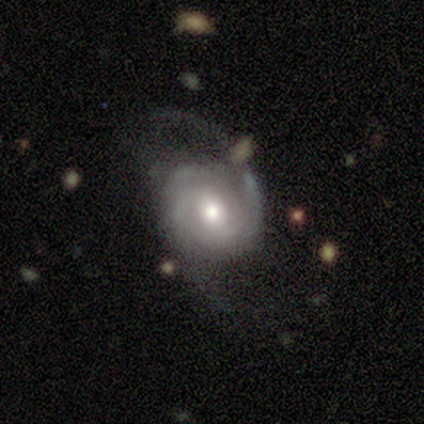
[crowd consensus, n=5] This appears to be a featured or disk galaxy (100%) with no bar (60%), 2 (60%) medium (60%) spiral arms (100%) and a moderate central bulge (60%). Merging: none (80%).